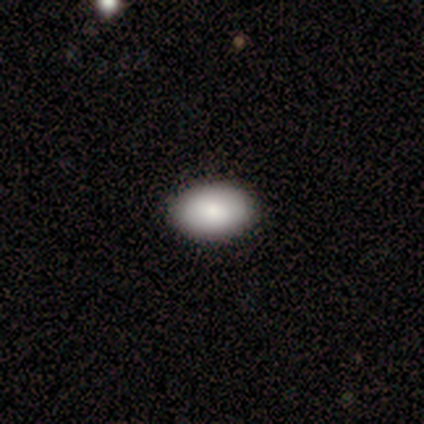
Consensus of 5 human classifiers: Morphology: type=smooth (100%); roundness=in between (100%); merging=none (100%).